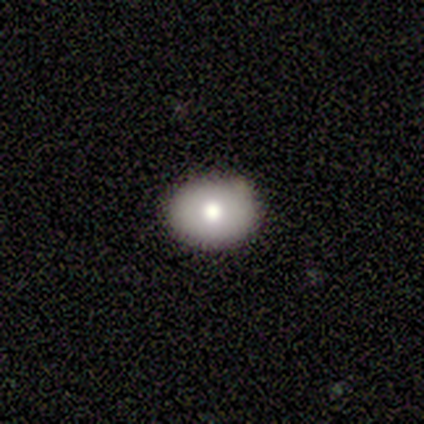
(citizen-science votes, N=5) Overall: smooth (60%; star or artifact 40%). How rounded: in between (67%; round 33%). Merging: none (67%; minor disturbance 33%).